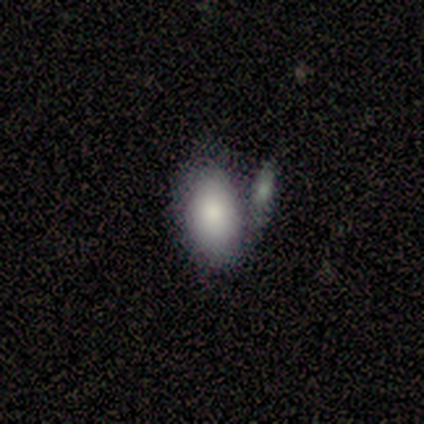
This appears to be a smooth galaxy with no disk features (100%) that is in between round and cigar-shaped (100%). Merging: none (40%, tied with merger).